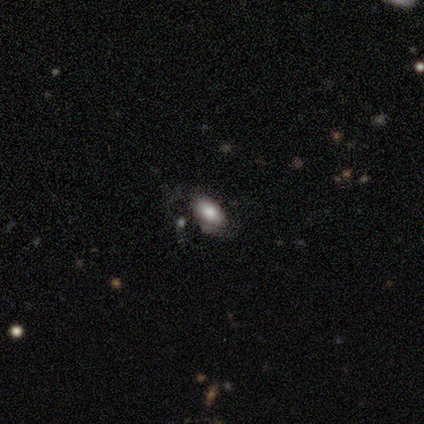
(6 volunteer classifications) smooth_or_featured: smooth (p=0.83) [alt: featured or disk p=0.17]
how_rounded: in between (p=0.80) [alt: round p=0.20]
merging: none (p=0.83) [alt: minor disturbance p=0.17]